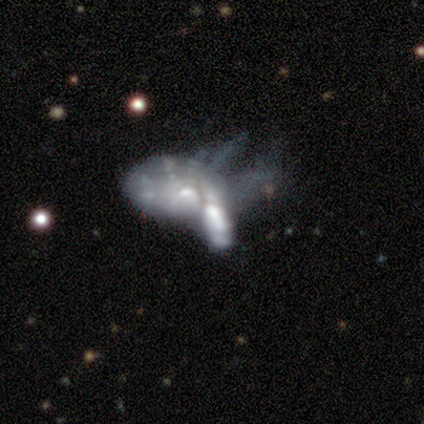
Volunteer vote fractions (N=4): This is likely a featured or disk galaxy (75%). It is clearly not viewed edge-on (100%). Bar: clearly no (100%). Spiral arm pattern: clearly no (100%). Central bulge: likely small (67%). Merging: possibly major disturbance (50%, tied with merger).